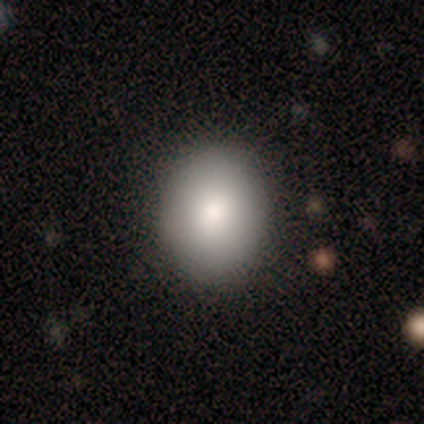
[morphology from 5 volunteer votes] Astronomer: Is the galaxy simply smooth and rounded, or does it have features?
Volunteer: smooth — 80%.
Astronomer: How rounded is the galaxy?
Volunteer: round — 50%, tied with in between at 50%.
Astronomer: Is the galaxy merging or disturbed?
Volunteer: none — 80%.